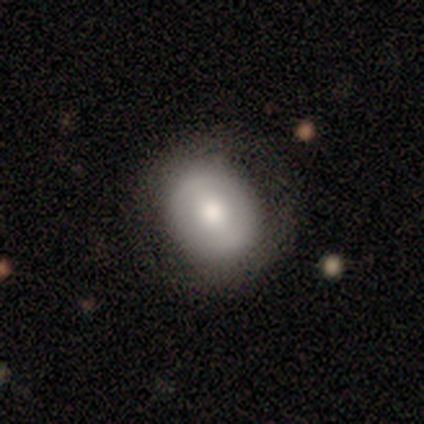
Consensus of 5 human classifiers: Smooth or featured: smooth — 60% (featured or disk — 40%)
How rounded: round — 100%
Merging: none — 80% (major disturbance — 20%)